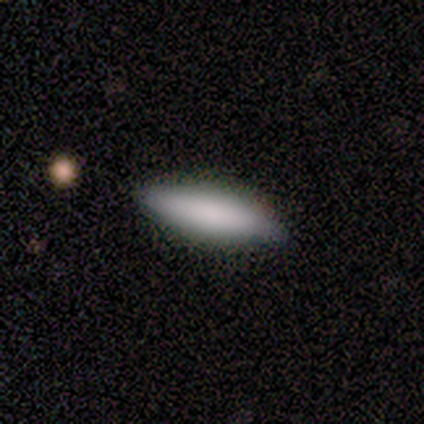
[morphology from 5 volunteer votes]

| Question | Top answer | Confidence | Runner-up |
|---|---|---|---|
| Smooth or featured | smooth | 100% | — |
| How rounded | in between | 80% | cigar-shaped (20%) |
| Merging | none | 100% | — |